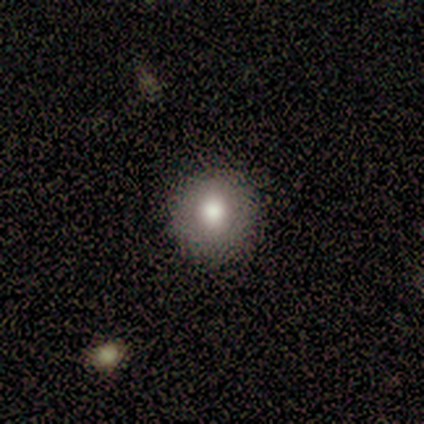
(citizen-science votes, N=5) Smooth or featured?
  - smooth: 80% *
  - featured or disk: 20%
  - star or artifact: 0%
How rounded?
  - round: 100% *
  - in between: 0%
  - cigar-shaped: 0%
Merging?
  - none: 100% *
  - minor disturbance: 0%
  - major disturbance: 0%
  - merger: 0%